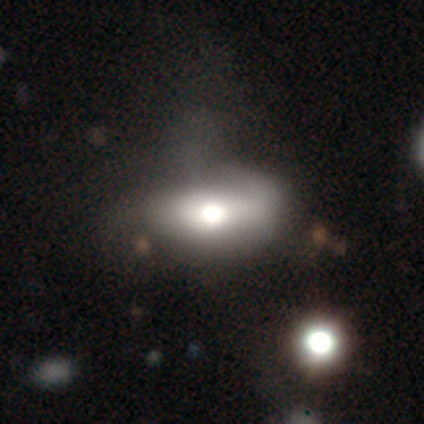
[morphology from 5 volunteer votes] A featured or disk galaxy (60%) with a strong bar (33%, tied with weak and no), no spiral arms (67%) and a moderate central bulge (67%).

Vote fractions:
- Smooth or featured? featured or disk: 60% / smooth: 20% / star or artifact: 20%
- Edge-on disk? no: 100% / yes: 0%
- Bar? strong: 33% (tied) / weak: 33% (tied) / no: 33% (tied)
- Spiral arms? no: 67% / yes: 33%
- Bulge size? moderate: 67% / dominant: 33% / large: 0% / small: 0% / none: 0%
- Merging? minor disturbance: 50% / none: 25% / major disturbance: 25% / merger: 0%